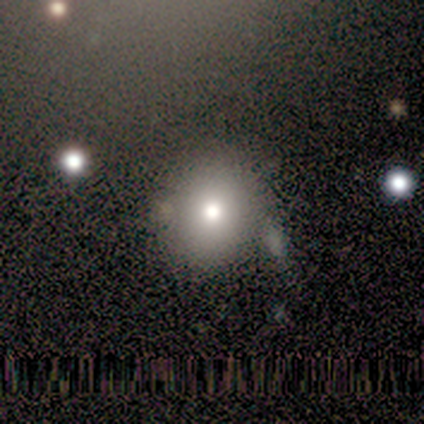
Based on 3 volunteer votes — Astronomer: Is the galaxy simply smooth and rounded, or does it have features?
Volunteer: smooth — 100%.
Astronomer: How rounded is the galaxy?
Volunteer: round — 100%.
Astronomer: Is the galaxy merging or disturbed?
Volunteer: none — 67%.